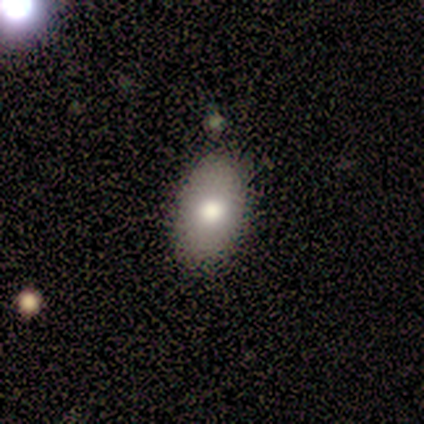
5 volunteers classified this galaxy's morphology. Q: Smooth or featured?
A: smooth (100%)
Q: How rounded?
A: in between (100%)
Q: Merging?
A: none (60%); runner-up: minor disturbance (20%)